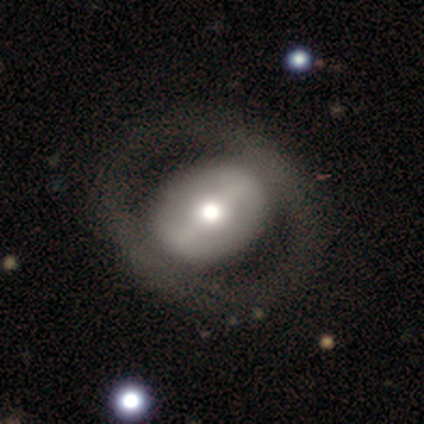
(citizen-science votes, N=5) Overall: featured or disk (80%). Edge-on disk: no (100%). Bar: strong (50%, tied with no). Spiral arms: no (75%). Bulge size: moderate (75%). Merging: none (60%; major disturbance 40%).